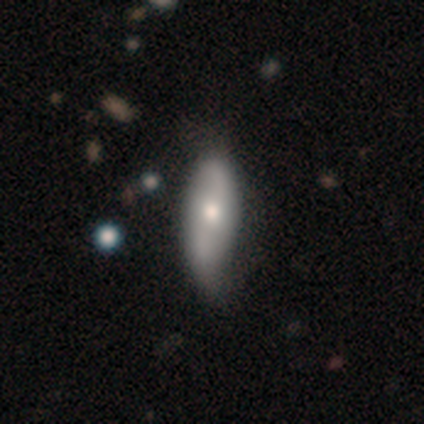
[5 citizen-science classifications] featured or disk 60%, smooth 40%, star or artifact 0%. Down the decision tree: edge-on disk — no (67%); bar — weak (100%); spiral arms — yes (50%, tied with no); spiral arm count — 2 (100%); spiral winding — loose (100%); bulge size — moderate (100%); merging — minor disturbance (40%).